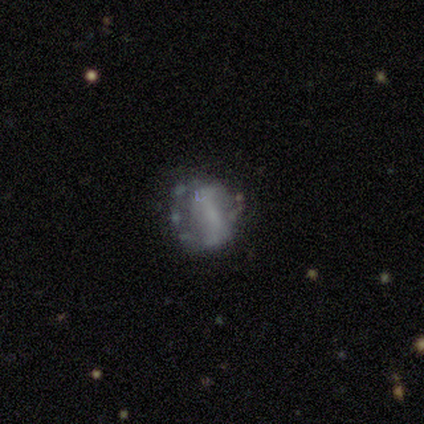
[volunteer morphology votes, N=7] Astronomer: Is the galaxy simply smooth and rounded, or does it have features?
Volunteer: smooth — 43% (runner-up: featured or disk, 29%).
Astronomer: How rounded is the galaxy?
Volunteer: in between — 67%.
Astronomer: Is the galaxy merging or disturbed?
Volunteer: none — 60% (runner-up: minor disturbance, 40%).